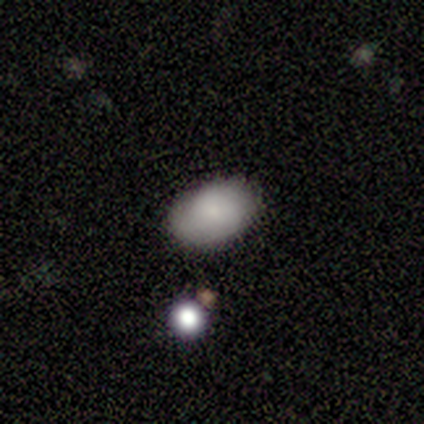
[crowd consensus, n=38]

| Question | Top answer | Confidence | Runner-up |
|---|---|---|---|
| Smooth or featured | smooth | 79% | featured or disk (11%) |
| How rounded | in between | 83% | round (17%) |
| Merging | none | 82% | minor disturbance (9%) |